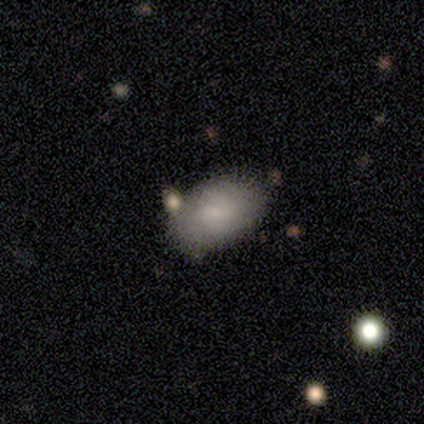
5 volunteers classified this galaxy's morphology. Smooth or featured? 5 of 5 (100%) said smooth. How rounded? 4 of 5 (80%) said in between. Merging? 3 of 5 (60%) said none.